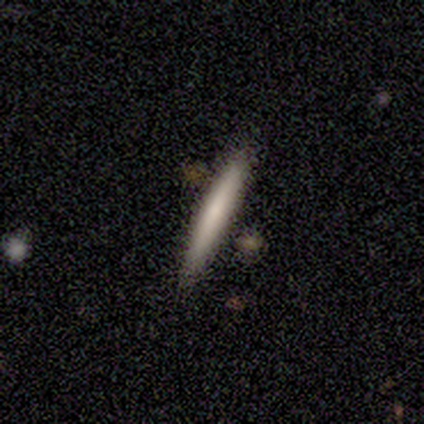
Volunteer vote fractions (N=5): Smooth or featured? featured or disk (60%)
Edge-on disk? yes (100%)
Edge-on bulge? none (67%)
Merging? none (80%)